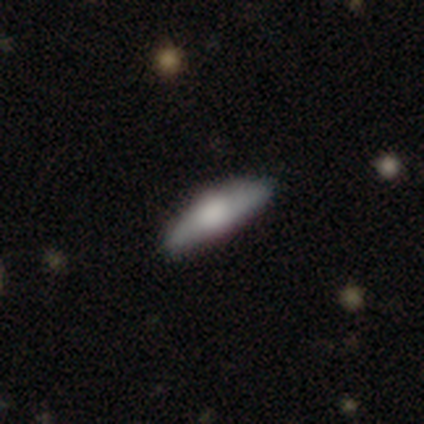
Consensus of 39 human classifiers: Volunteers were most divided on "smooth or featured": smooth: 56%, featured or disk: 41%, star or artifact: 3%. More confident: merging — none (87%); how rounded — cigar-shaped (68%).